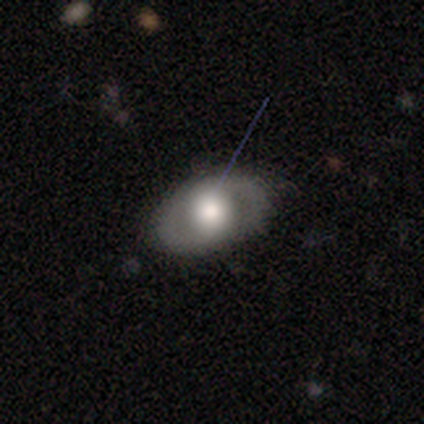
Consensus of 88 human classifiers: Q: Smooth or featured?
A: smooth (50%); runner-up: featured or disk (42%)
Q: How rounded?
A: in between (70%); runner-up: round (30%)
Q: Merging?
A: none (80%); runner-up: minor disturbance (16%)